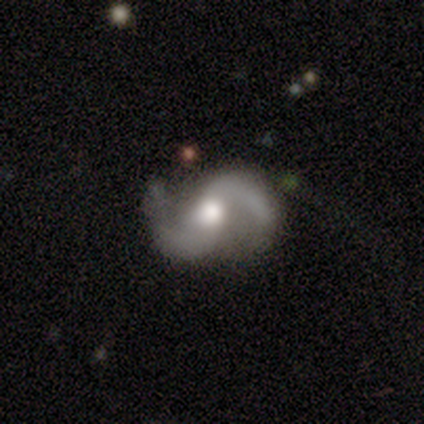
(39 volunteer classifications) This is clearly a featured or disk galaxy (90%). It is clearly not viewed edge-on (97%). Bar: possibly no (59%). Spiral arm pattern: clearly yes (100%). Spiral arm count: clearly 2 (97%). Spiral winding: possibly loose (53%). Central bulge: possibly moderate (53%). Merging: likely none (74%).